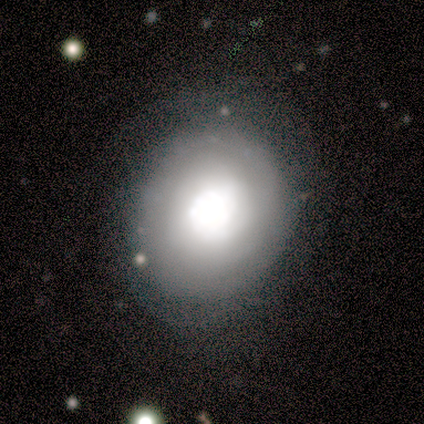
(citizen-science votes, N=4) smooth 75%, featured or disk 25%, star or artifact 0%. Down the decision tree: how rounded — round (67%); merging — none (50%).